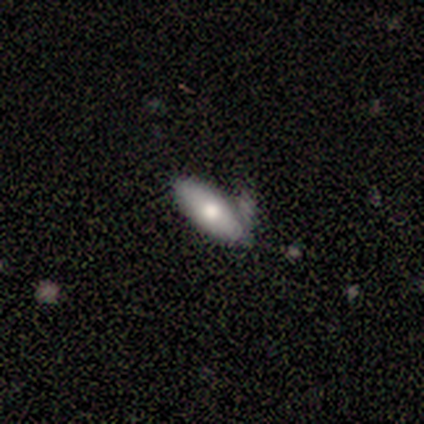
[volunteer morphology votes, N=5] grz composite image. It shows a smooth galaxy with no disk features (80%) that is in between round and cigar-shaped (50%, tied with cigar-shaped). Merging: none (40%, tied with minor disturbance).